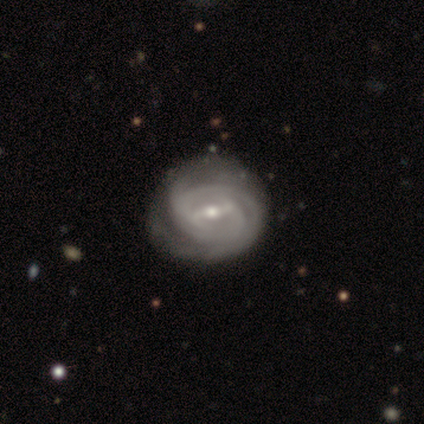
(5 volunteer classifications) Smooth or featured? featured or disk (100%)
Edge-on disk? no (100%)
Bar? strong (40%, tied with weak)
Spiral arms? yes (80%)
Spiral winding? tight (75%)
Spiral arm count? 2 (50%, tied with can't tell)
Bulge size? small (100%)
Merging? minor disturbance (60%)